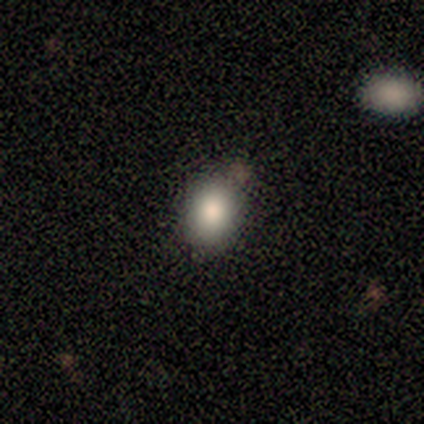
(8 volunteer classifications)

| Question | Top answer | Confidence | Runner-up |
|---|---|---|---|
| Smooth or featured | smooth | 88% | star or artifact (12%) |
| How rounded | round | 57% | in between (43%) |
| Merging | none | 86% | minor disturbance (14%) |